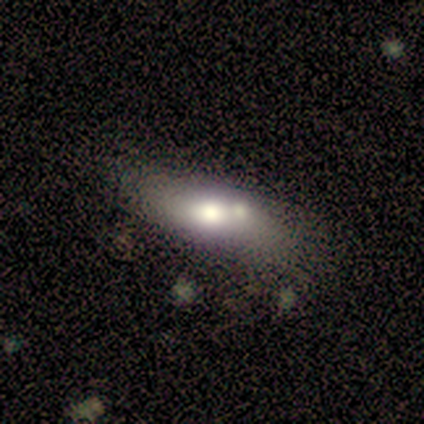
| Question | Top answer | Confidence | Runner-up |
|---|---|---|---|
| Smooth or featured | featured or disk | 75% | smooth (25%) |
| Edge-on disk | no | 67% | yes (33%) |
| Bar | no | 100% | — |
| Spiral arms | no | 100% | — |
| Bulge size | large | 50% | tied: moderate (50%) |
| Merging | none | 50% | minor disturbance (25%) |